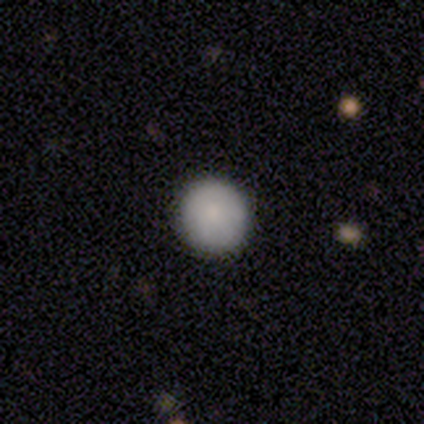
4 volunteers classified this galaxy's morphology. This appears to be a smooth galaxy with no disk features (100%) that is round (100%). Merging: none (100%).